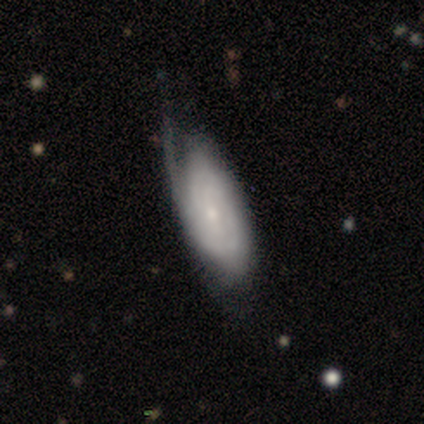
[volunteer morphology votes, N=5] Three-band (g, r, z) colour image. It shows a featured or disk galaxy (100%) with no bar (80%), tight (100%) spiral arms (80%) and a small central bulge (100%). Merging: minor disturbance (60%).